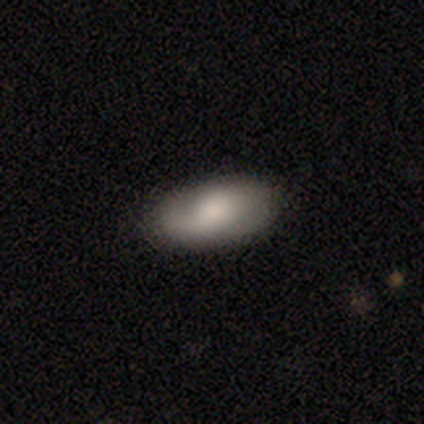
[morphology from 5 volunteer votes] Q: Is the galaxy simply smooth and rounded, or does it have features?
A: smooth — 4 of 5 (80%).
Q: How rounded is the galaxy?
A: in between — 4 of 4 (100%).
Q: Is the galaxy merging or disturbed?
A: none — 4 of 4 (100%).